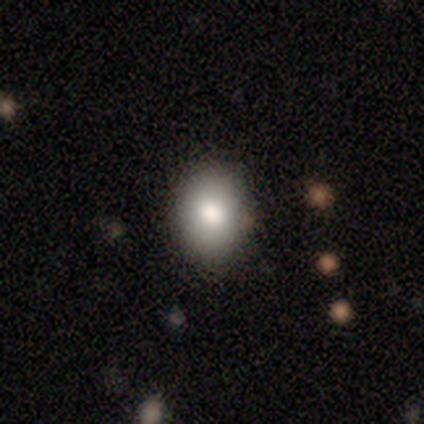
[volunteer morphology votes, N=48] Overall: smooth (79%). How rounded: in between (61%; round 37%). Merging: none (86%).